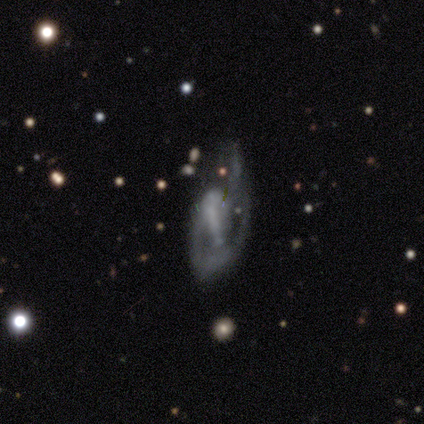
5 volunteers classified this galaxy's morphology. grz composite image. It shows a featured or disk galaxy (100%) with no bar (80%), 1 (50%) medium (50%) spiral arms (80%) and no central bulge (80%). Merging: major disturbance (80%).